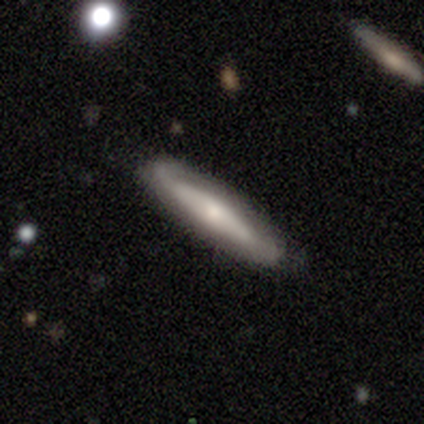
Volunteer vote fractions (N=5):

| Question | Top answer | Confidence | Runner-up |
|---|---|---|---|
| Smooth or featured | smooth | 60% | featured or disk (40%) |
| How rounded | cigar-shaped | 100% | — |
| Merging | none | 80% | minor disturbance (20%) |